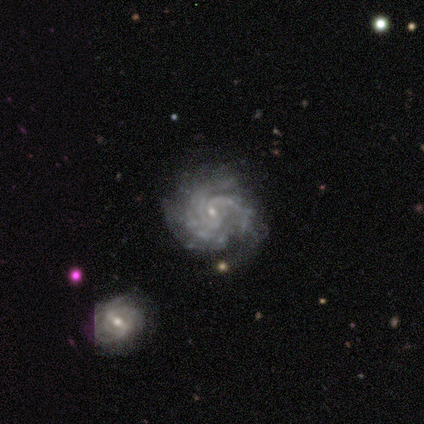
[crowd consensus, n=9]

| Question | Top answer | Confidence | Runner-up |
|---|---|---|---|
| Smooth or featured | featured or disk | 100% | — |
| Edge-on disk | no | 100% | — |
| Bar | no | 67% | weak (22%) |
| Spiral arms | yes | 100% | — |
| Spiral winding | tight | 78% | medium (22%) |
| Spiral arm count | can't tell | 33% | 4 (22%) |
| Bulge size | small | 89% | none (11%) |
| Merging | none | 67% | minor disturbance (33%) |